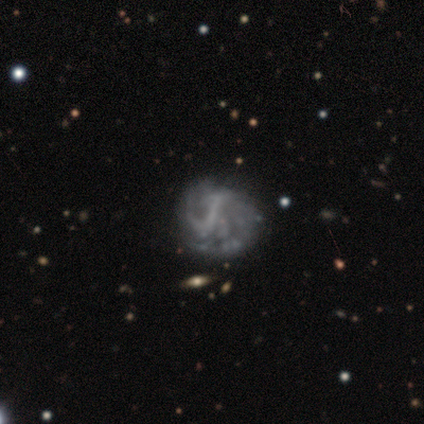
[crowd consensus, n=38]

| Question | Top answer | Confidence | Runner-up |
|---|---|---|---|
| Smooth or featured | featured or disk | 79% | smooth (16%) |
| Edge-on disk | no | 100% | — |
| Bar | weak | 37% | strong (33%) |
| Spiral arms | yes | 80% | no (20%) |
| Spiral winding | loose | 42% | medium (38%) |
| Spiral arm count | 2 | 42% | can't tell (38%) |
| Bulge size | none | 90% | large (3%) |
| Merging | none | 36% | major disturbance (25%) |